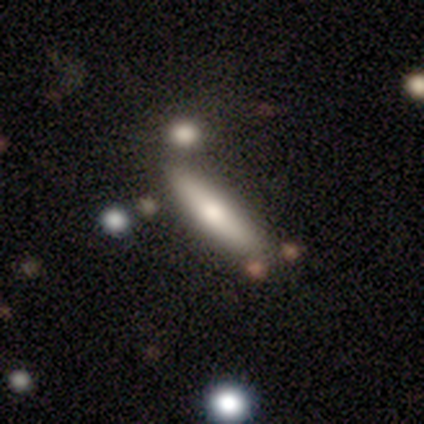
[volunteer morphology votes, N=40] Smooth or featured? smooth (55%)
How rounded? cigar-shaped (82%)
Merging? none (78%)